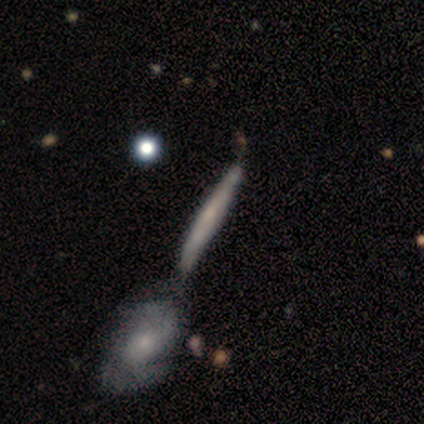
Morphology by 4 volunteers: A smooth galaxy with no disk features (50%, tied with featured or disk) that is cigar-shaped (100%). Merging: merger (50%).